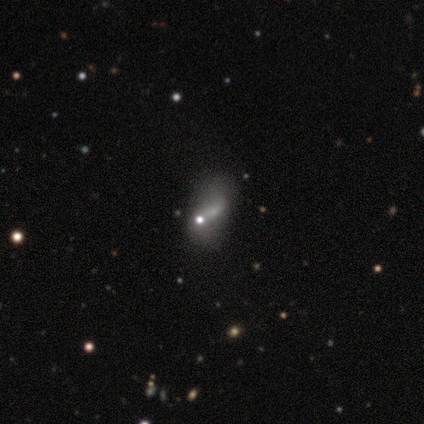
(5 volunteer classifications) Q: Smooth or featured?
A: smooth (60%); runner-up: featured or disk (20%)
Q: How rounded?
A: in between (100%)
Q: Merging?
A: none (75%); runner-up: minor disturbance (25%)